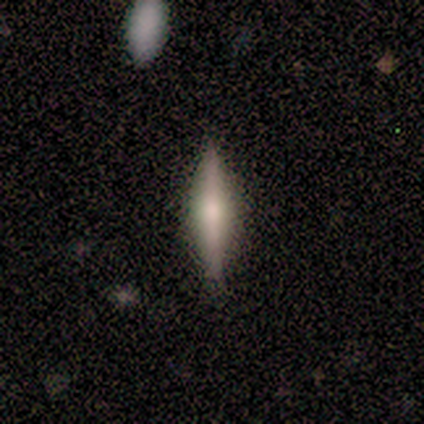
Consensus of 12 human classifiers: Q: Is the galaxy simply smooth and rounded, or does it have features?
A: smooth — 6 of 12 (50%, tied with featured or disk).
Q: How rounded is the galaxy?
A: cigar-shaped — 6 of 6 (100%).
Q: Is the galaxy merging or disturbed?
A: none — 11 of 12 (92%).